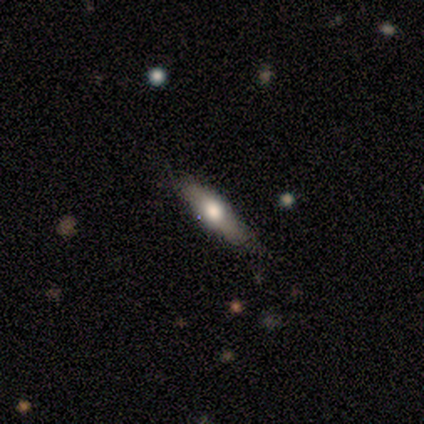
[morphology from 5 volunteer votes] smooth-or-featured: featured or disk: 60% | smooth: 40% | star or artifact: 0%
  disk-edge-on: yes: 100% | no: 0%
    edge-on-bulge: rounded: 100% | boxy: 0% | none: 0%
  merging: none: 100% | minor disturbance: 0% | major disturbance: 0% | merger: 0%